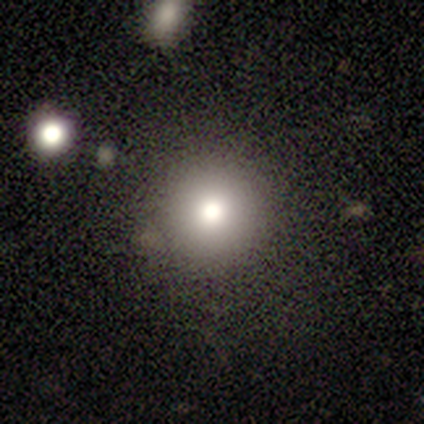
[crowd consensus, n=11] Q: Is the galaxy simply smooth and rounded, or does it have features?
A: smooth — 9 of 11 (82%).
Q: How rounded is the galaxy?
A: round — 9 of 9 (100%).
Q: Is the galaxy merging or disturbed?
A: none — 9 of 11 (82%).